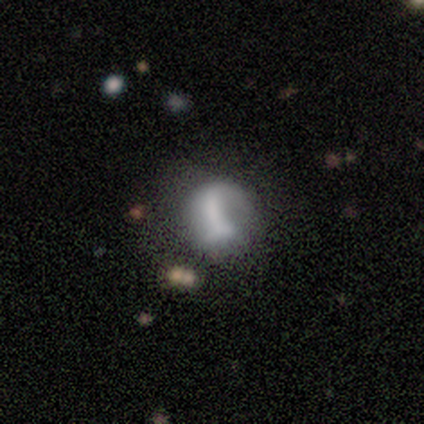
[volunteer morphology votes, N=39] Overall: featured or disk (62%; smooth 33%). Edge-on disk: no (100%). Bar: no (71%). Spiral arms: no (62%; yes 38%). Bulge size: none (46%; dominant 17%). Merging: major disturbance (41%; none 30%).